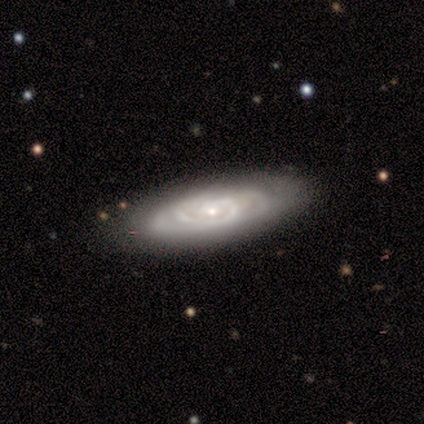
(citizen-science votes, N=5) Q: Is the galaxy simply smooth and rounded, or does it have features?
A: featured or disk — 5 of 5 (100%).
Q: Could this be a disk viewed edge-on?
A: no — 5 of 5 (100%).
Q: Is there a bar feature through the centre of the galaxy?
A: no — 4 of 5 (80%).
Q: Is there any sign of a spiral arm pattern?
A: yes — 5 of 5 (100%).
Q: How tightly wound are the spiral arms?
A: medium — 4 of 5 (80%).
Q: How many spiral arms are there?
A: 1 — 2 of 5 (40%, tied with can't tell).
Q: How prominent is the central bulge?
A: small — 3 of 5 (60%).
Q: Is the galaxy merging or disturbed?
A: none — 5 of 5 (100%).